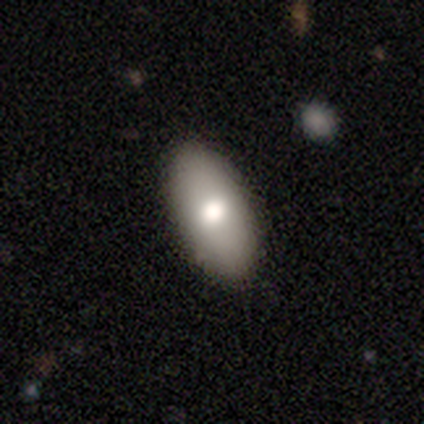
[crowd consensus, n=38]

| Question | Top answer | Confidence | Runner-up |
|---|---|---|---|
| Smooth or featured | smooth | 84% | featured or disk (8%) |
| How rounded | in between | 81% | cigar-shaped (19%) |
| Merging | none | 89% | minor disturbance (11%) |